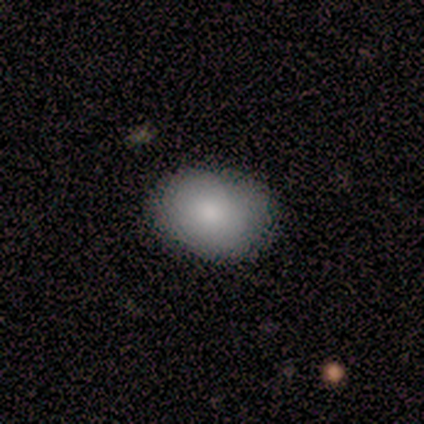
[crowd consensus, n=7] A smooth galaxy with no disk features (100%) that is in between round and cigar-shaped (86%). Merging: none (86%).